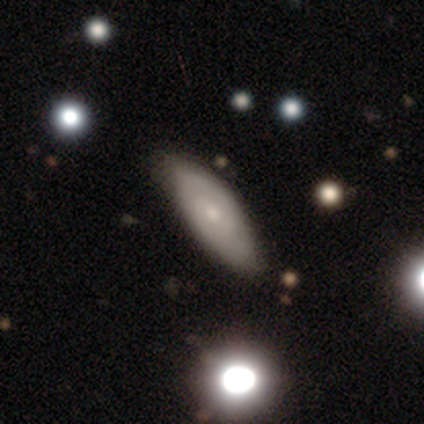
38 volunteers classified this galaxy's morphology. A featured or disk galaxy (63%) with no bar (52%), 2 (67%) tight (50%, tied with medium) spiral arms (57%) and a small central bulge (48%). Merging: none (57%).